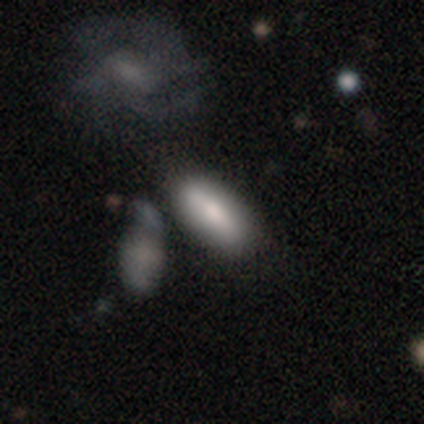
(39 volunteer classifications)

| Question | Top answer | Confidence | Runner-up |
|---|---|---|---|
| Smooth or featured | smooth | 67% | featured or disk (26%) |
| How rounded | in between | 81% | cigar-shaped (19%) |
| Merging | none | 42% | merger (25%) |